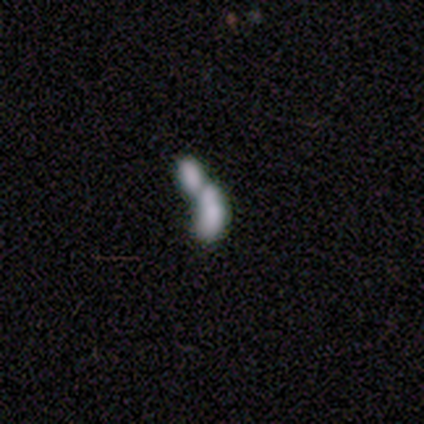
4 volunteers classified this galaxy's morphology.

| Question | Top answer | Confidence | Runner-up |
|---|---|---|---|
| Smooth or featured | smooth | 75% | featured or disk (25%) |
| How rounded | cigar-shaped | 67% | in between (33%) |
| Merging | merger | 100% | — |